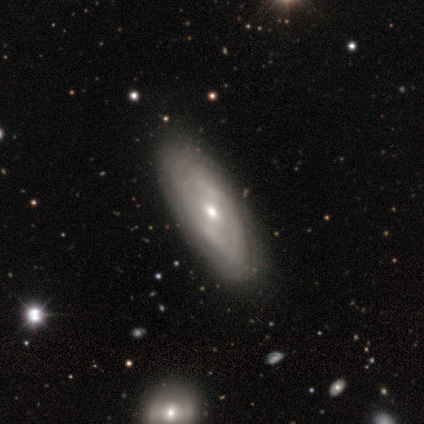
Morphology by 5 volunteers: smooth_or_featured: featured or disk (p=1.00)
disk_edge_on: no (p=1.00)
bar: weak (p=0.60) [alt: strong p=0.20]
has_spiral_arms: yes (p=0.60) [alt: no p=0.40]
spiral_winding: medium (p=0.67) [alt: loose p=0.33]
spiral_arm_count: 2 (p=0.67) [alt: can't tell p=0.33]
bulge_size: small (p=0.80) [alt: moderate p=0.20]
merging: none (p=0.80) [alt: major disturbance p=0.20]